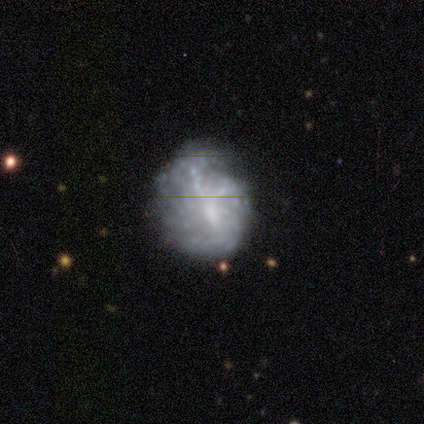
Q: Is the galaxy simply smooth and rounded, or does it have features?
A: featured or disk — 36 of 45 (80%).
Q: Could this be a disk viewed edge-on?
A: no — 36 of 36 (100%).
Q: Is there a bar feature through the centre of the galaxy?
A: no — 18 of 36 (50%).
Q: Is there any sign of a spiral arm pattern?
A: yes — 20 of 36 (56%).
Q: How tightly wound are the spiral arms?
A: tight — 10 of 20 (50%).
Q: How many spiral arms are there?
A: can't tell — 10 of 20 (50%).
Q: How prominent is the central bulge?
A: none — 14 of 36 (39%).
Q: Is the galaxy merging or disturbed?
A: none — 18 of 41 (44%).